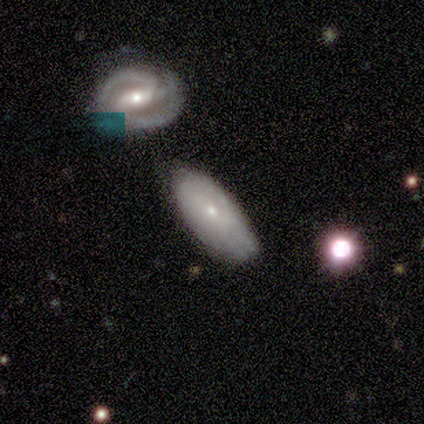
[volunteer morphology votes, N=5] A smooth galaxy with no disk features (60%) that is in between round and cigar-shaped (100%). Merging: none (80%).